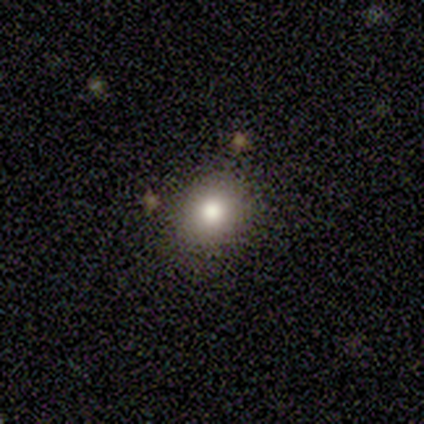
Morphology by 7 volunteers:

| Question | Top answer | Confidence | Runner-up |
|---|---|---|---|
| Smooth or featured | smooth | 86% | featured or disk (14%) |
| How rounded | round | 67% | in between (33%) |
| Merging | none | 86% | minor disturbance (14%) |